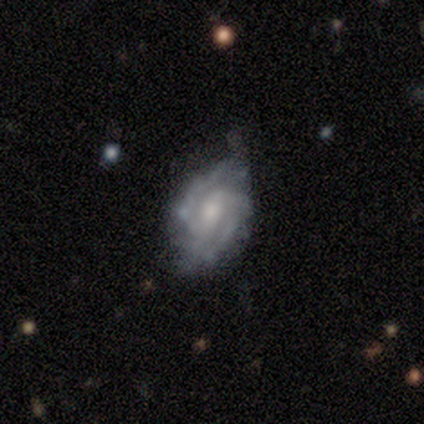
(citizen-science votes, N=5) Smooth or featured? 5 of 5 (100%) said featured or disk. Edge-on disk? 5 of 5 (100%) said no. Bar? 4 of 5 (80%) said strong. Spiral arms? 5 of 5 (100%) said yes. Spiral winding? 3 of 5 (60%) said tight. Spiral arm count? 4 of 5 (80%) said 2. Bulge size? 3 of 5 (60%) said small. Merging? 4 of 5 (80%) said none.